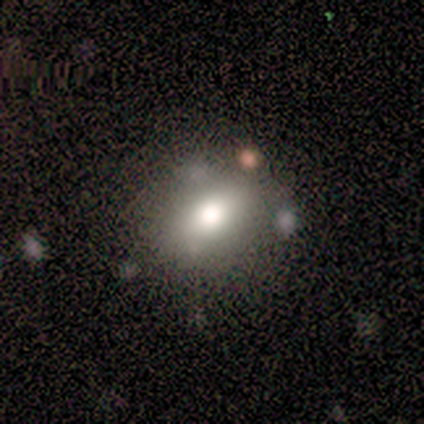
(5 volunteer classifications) Smooth or featured? 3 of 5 (60%) said smooth. How rounded? 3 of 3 (100%) said in between. Merging? 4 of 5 (80%) said none.